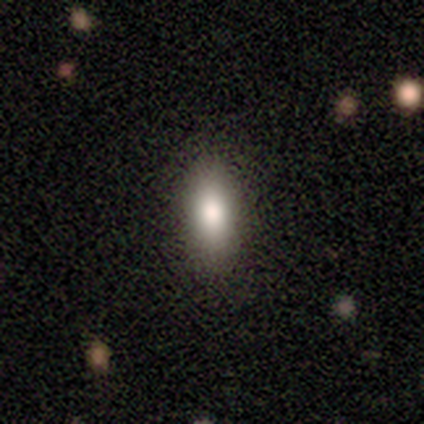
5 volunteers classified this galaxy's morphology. Q: Smooth or featured?
A: smooth (100%)
Q: How rounded?
A: in between (80%); runner-up: cigar-shaped (20%)
Q: Merging?
A: none (80%); runner-up: minor disturbance (20%)